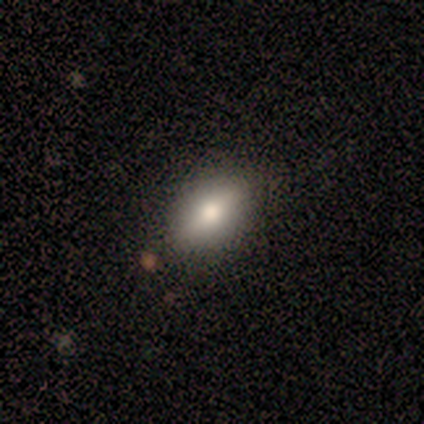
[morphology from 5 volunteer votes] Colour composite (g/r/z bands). It shows a smooth galaxy with no disk features (80%) that is in between round and cigar-shaped (100%). Merging: none (80%).